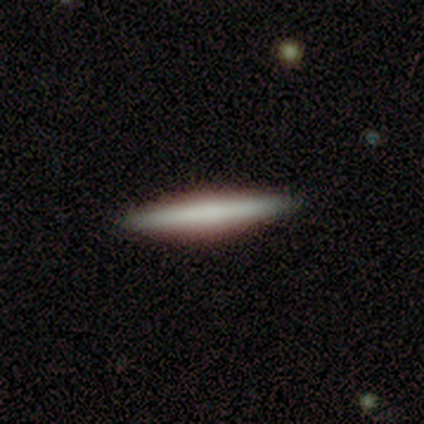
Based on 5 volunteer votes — Overall: smooth (80%). How rounded: cigar-shaped (100%). Merging: none (100%).